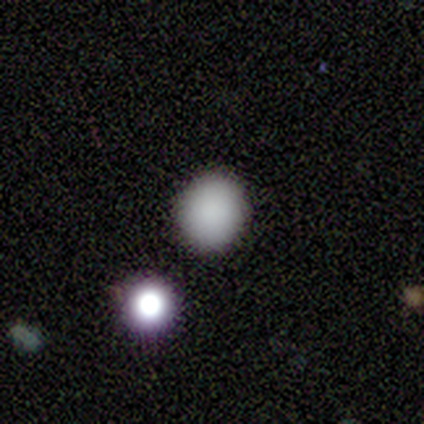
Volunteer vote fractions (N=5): smooth_or_featured: smooth (p=1.00)
how_rounded: round (p=0.80) [alt: in between p=0.20]
merging: none (p=1.00)